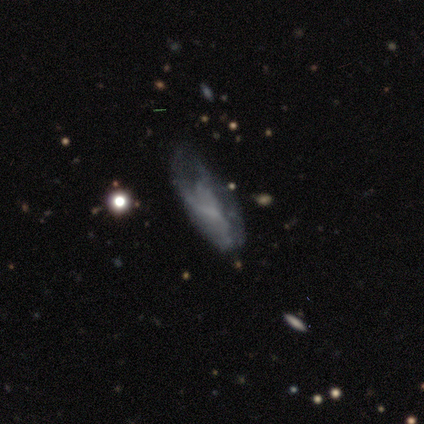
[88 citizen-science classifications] Volunteers were most divided on "merging": none: 41%, major disturbance: 30%, minor disturbance: 26%, merger: 3%. More confident: edge-on disk — no (82%); bar — no (73%); spiral arms — no (66%); bulge size — none (63%); smooth or featured — featured or disk (57%).